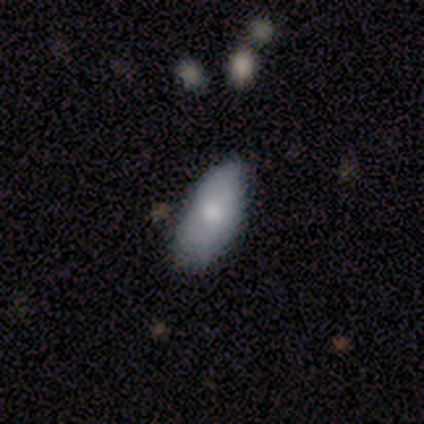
smooth 100%, featured or disk 0%, star or artifact 0%. Down the decision tree: how rounded — in between (75%); merging — none (75%).